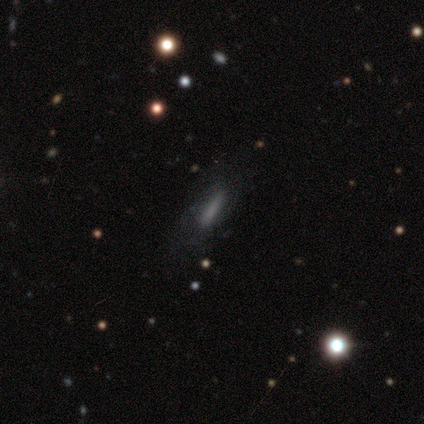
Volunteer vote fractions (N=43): smooth 65%, featured or disk 28%, star or artifact 7%. Down the decision tree: how rounded — cigar-shaped (86%); merging — none (68%).